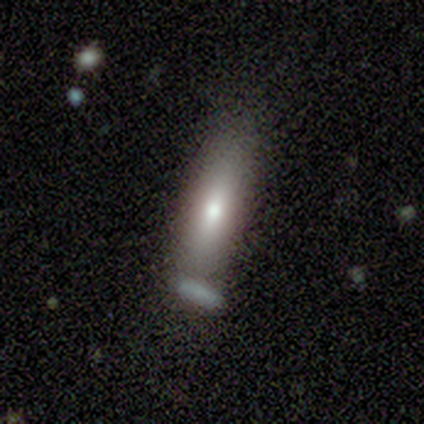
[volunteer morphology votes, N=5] Smooth or featured? smooth (40%, tied with featured or disk)
How rounded? cigar-shaped (100%)
Merging? none (100%)